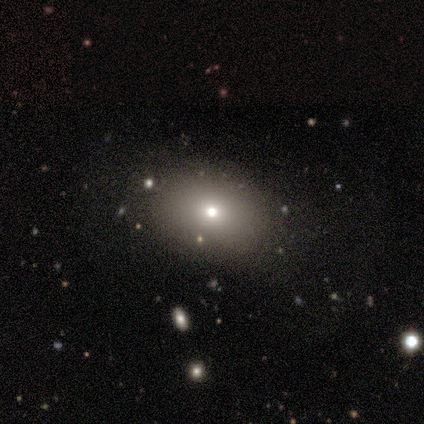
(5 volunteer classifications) Smooth or featured? smooth (80%)
How rounded? in between (100%)
Merging? none (100%)